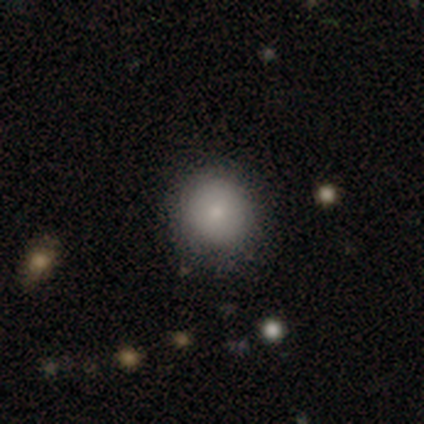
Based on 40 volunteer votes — Smooth or featured: smooth — 85% (featured or disk — 12%)
How rounded: round — 91% (in between — 9%)
Merging: none — 85% (minor disturbance — 15%)